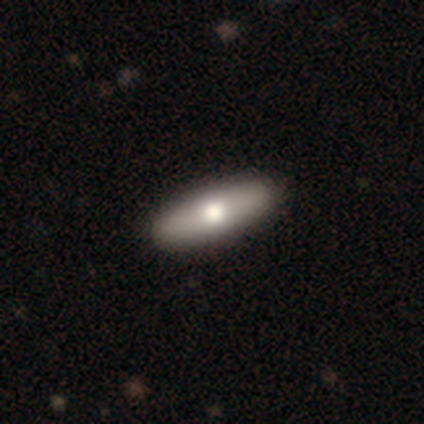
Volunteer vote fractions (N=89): This is likely a smooth galaxy (61%). How rounded: possibly cigar-shaped (56%). Merging: clearly none (98%).